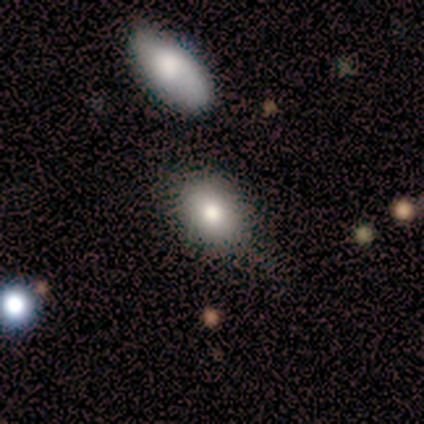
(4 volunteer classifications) A smooth galaxy with no disk features (100%) that is in between round and cigar-shaped (75%).

Vote fractions:
- Smooth or featured? smooth: 100% / featured or disk: 0% / star or artifact: 0%
- How rounded? in between: 75% / round: 25% / cigar-shaped: 0%
- Merging? none: 75% / minor disturbance: 25% / major disturbance: 0% / merger: 0%